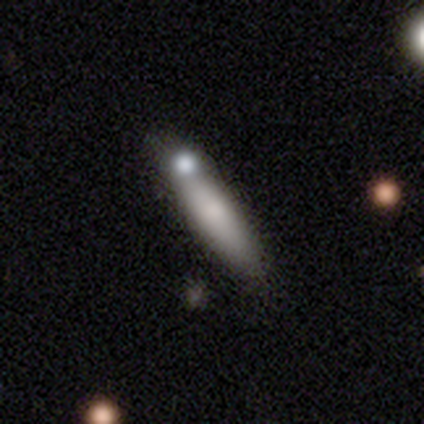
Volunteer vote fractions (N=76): smooth 58%, featured or disk 30%, star or artifact 12%. Down the decision tree: how rounded — cigar-shaped (80%); merging — merger (24%).